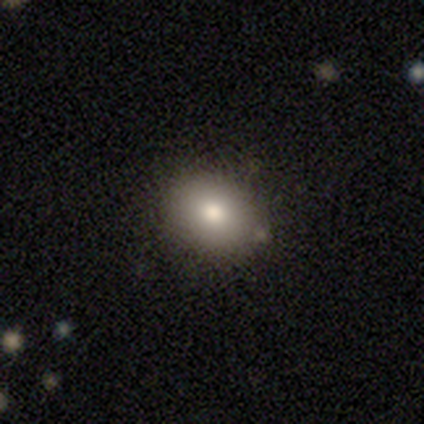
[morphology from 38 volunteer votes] Smooth or featured?
  - smooth: 79% *
  - star or artifact: 16%
  - featured or disk: 5%
How rounded?
  - in between: 67% *
  - round: 33%
  - cigar-shaped: 0%
Merging?
  - none: 72% *
  - minor disturbance: 28%
  - major disturbance: 0%
  - merger: 0%